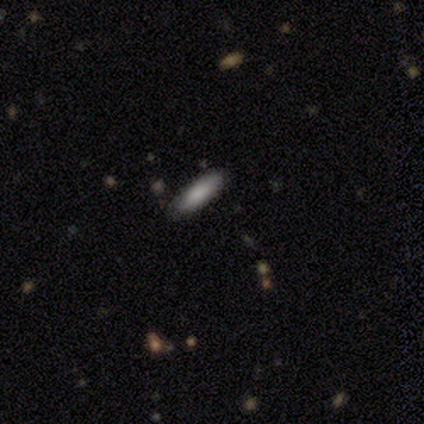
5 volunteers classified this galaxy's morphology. This is clearly a smooth galaxy (100%). How rounded: likely cigar-shaped (60%). Merging: clearly none (100%).